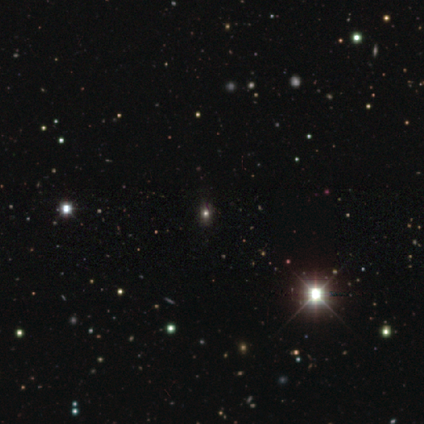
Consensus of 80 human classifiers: Overall: star or artifact (68%).